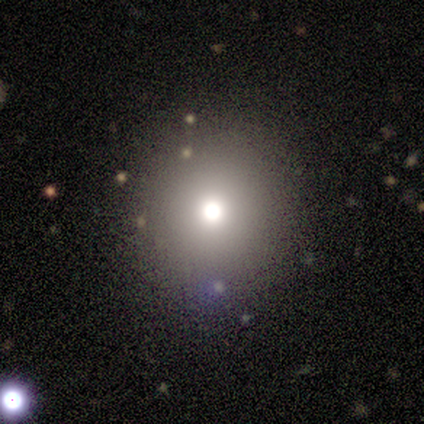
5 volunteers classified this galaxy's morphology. This appears to be a smooth galaxy with no disk features (80%) that is round (100%). Merging: none (100%).